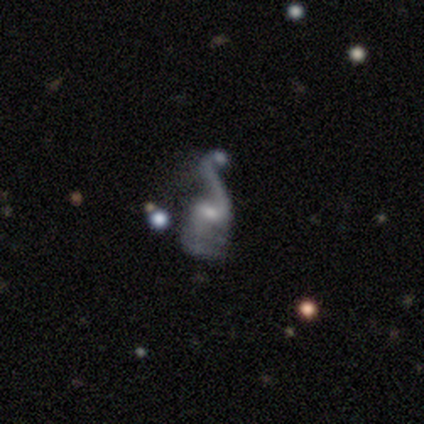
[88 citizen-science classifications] Morphology: type=featured or disk (76%); edge-on=no (99%); bar=weak (55%); spiral arms=yes (85%); winding=loose (84%); arm count=2 (54%); bulge=small (55%); merging=major disturbance (35%).